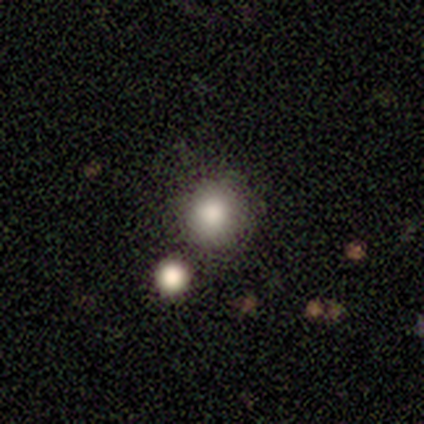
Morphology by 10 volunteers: Overall: smooth (90%). How rounded: round (89%). Merging: none (80%).